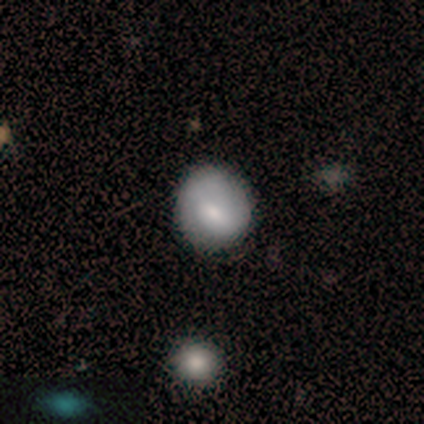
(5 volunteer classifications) This appears to be a smooth galaxy with no disk features (80%) that is round (100%). Merging: none (60%).